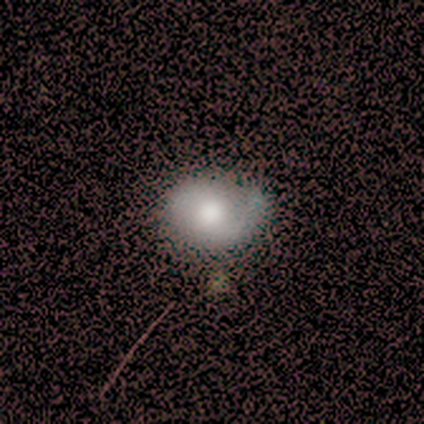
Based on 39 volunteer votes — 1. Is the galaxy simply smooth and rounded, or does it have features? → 62% smooth, 28% featured or disk, 10% star or artifact.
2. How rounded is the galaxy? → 62% in between, 38% round, 0% cigar-shaped.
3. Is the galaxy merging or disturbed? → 57% none, 11% major disturbance, 9% minor disturbance, 3% merger.